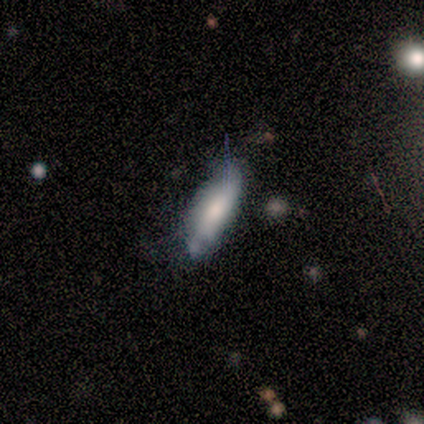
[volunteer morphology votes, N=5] type=smooth (100%); roundness=cigar-shaped (60%); merging=none (60%).